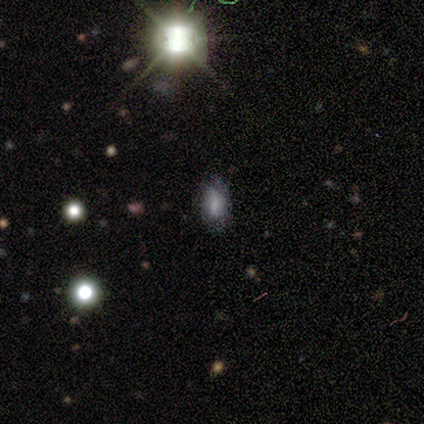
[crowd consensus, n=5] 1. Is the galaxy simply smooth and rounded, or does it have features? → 80% smooth, 20% star or artifact, 0% featured or disk.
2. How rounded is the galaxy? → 100% in between, 0% round, 0% cigar-shaped.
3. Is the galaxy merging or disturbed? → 50% none (tied), 50% minor disturbance (tied), 0% major disturbance, 0% merger.